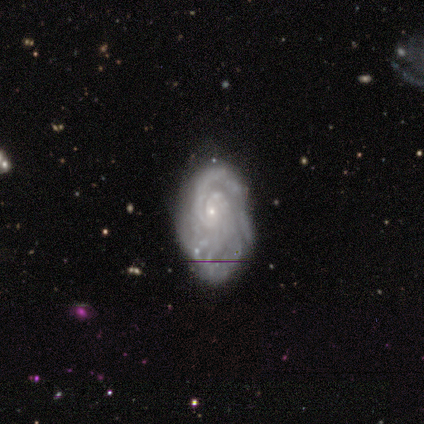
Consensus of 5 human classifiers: This appears to be a featured or disk galaxy (100%) with no bar (100%), tight (100%) spiral arms (80%) and a small central bulge (80%). Merging: minor disturbance (40%, tied with major disturbance).